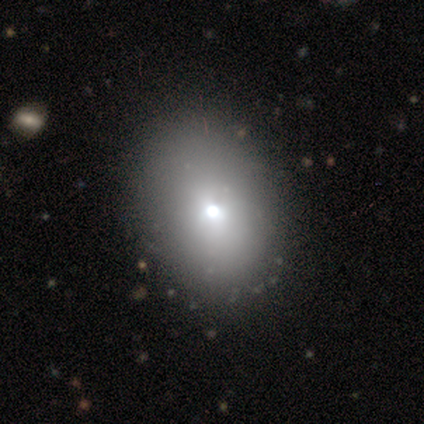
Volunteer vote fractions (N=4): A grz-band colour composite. It shows a smooth galaxy with no disk features (50%, tied with featured or disk) that is round (50%, tied with in between). Merging: none (100%).